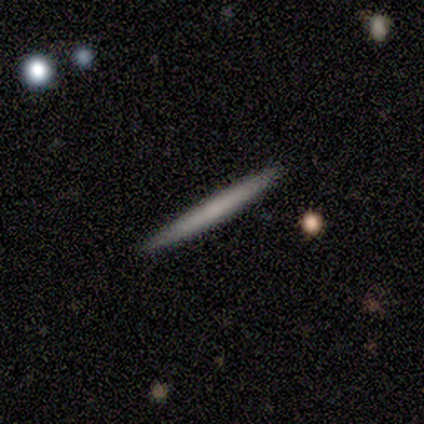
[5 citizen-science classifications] smooth-or-featured: smooth: 60% | featured or disk: 40% | star or artifact: 0%
  how-rounded: cigar-shaped: 100% | round: 0% | in between: 0%
  merging: none: 80% | minor disturbance: 20% | major disturbance: 0% | merger: 0%